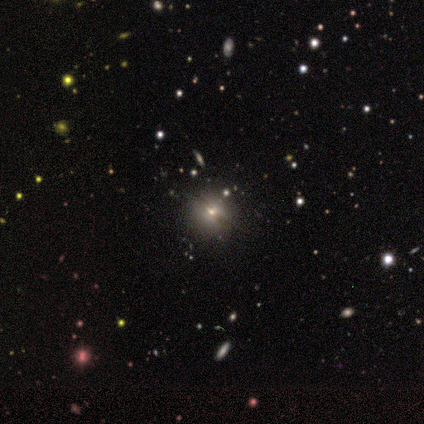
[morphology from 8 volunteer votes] This is possibly a smooth galaxy (50%). How rounded: clearly round (100%). Merging: clearly none (86%).